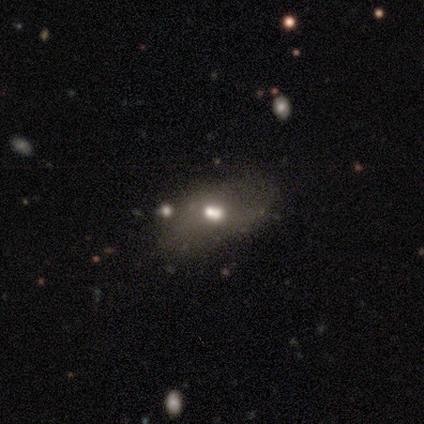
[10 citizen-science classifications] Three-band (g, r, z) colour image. It shows a star or artifact, not a galaxy (50%).